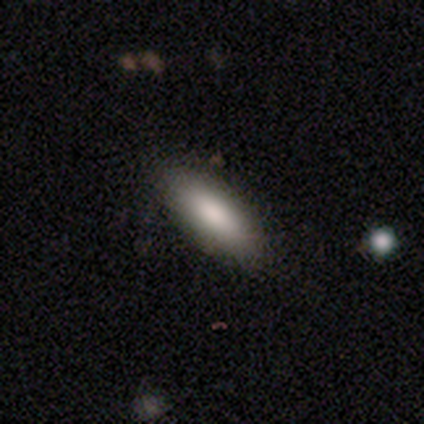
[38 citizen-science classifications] smooth-or-featured: smooth: 89% | featured or disk: 5% | star or artifact: 5%
  how-rounded: in between: 56% | cigar-shaped: 44% | round: 0%
  merging: none: 92% | minor disturbance: 8% | major disturbance: 0% | merger: 0%